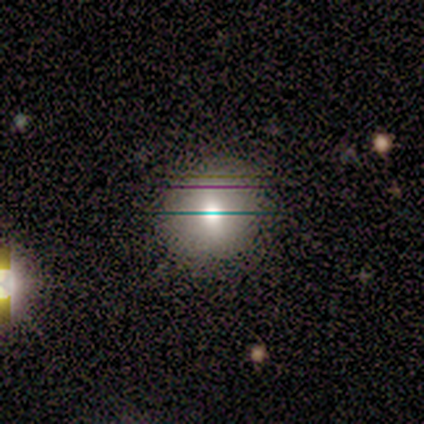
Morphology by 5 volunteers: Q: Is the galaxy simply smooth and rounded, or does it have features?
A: smooth — 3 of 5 (60%).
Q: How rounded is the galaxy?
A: round — 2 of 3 (67%).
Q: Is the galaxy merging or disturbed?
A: none — 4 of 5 (80%).